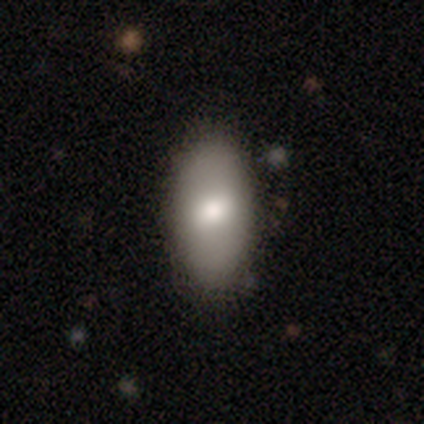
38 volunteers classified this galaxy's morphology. This appears to be a smooth galaxy with no disk features (76%) that is in between round and cigar-shaped (90%). Merging: none (54%).